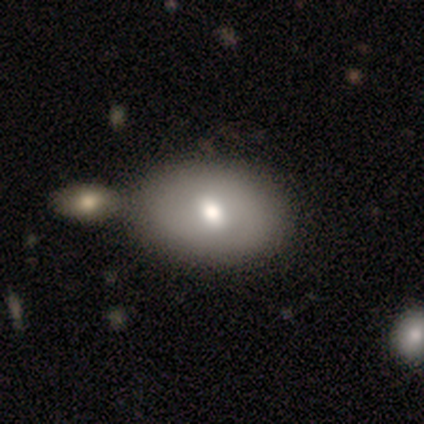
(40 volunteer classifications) smooth-or-featured: smooth: 65% | featured or disk: 35% | star or artifact: 0%
  how-rounded: in between: 96% | round: 4% | cigar-shaped: 0%
  merging: none: 57% | merger: 30% | minor disturbance: 2% | major disturbance: 0%